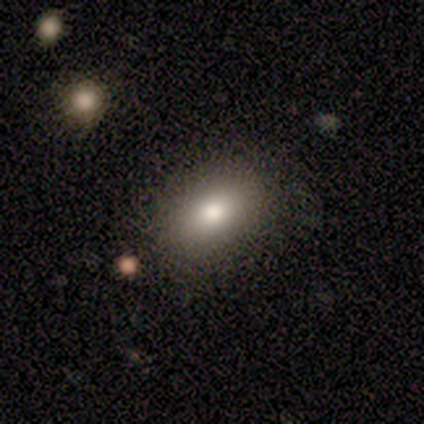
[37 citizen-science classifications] Smooth or featured? 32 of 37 (86%) said smooth. How rounded? 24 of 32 (75%) said in between. Merging? 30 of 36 (83%) said none.